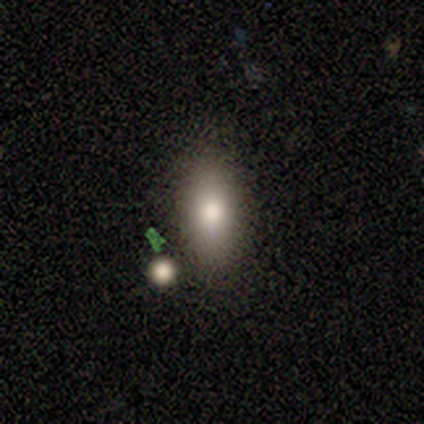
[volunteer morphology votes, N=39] A smooth galaxy with no disk features (59%) that is in between round and cigar-shaped (87%).

Vote fractions:
- Smooth or featured? smooth: 59% / star or artifact: 23% / featured or disk: 18%
- How rounded? in between: 87% / cigar-shaped: 9% / round: 4%
- Merging? none: 57% / minor disturbance: 27% / merger: 17% / major disturbance: 0%